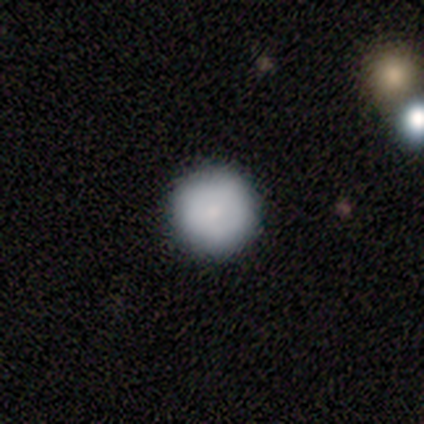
A smooth galaxy with no disk features (50%, tied with featured or disk) that is round (100%). Merging: none (75%).